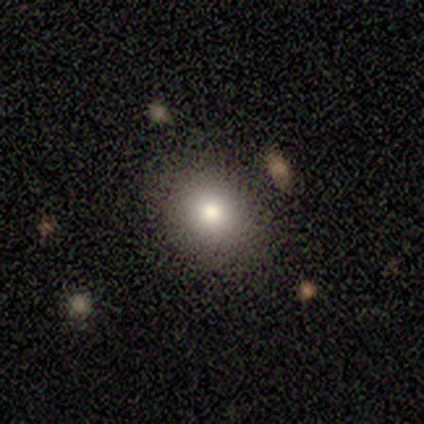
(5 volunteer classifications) Smooth or featured? smooth (40%, tied with star or artifact)
How rounded? round (50%, tied with in between)
Merging? none (100%)